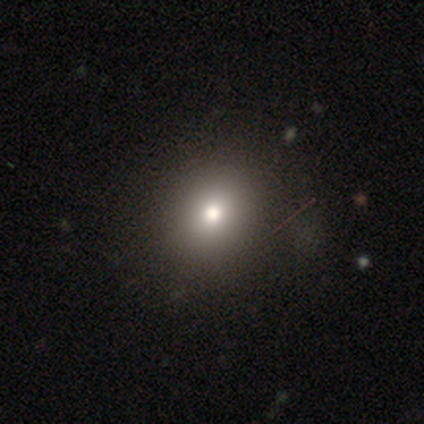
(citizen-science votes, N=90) This is likely a smooth galaxy (68%). How rounded: likely round (72%). Merging: clearly none (85%).